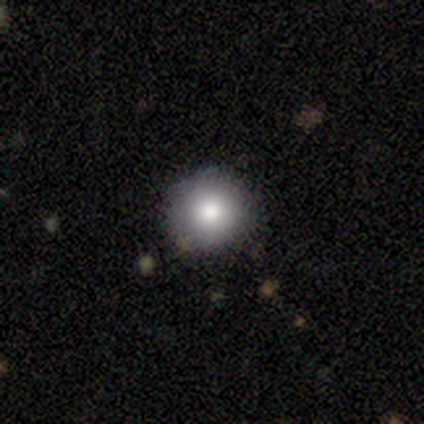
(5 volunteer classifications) A smooth galaxy with no disk features (60%) that is round (100%).

Vote fractions:
- Smooth or featured? smooth: 60% / featured or disk: 20% / star or artifact: 20%
- How rounded? round: 100% / in between: 0% / cigar-shaped: 0%
- Merging? none: 75% / minor disturbance: 25% / major disturbance: 0% / merger: 0%